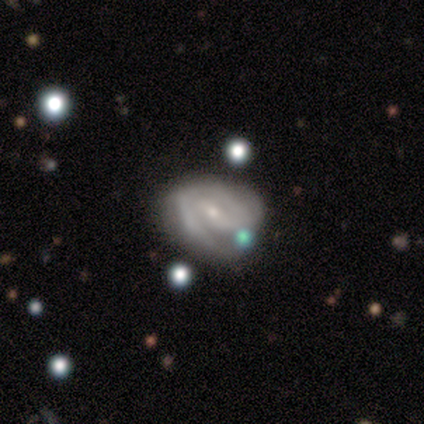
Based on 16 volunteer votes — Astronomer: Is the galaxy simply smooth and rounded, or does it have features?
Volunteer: featured or disk — 75%.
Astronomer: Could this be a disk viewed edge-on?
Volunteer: no — 100%.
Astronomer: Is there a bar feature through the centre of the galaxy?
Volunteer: weak — 58%.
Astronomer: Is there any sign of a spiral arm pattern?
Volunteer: yes — 100%.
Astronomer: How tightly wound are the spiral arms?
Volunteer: medium — 50% (runner-up: tight, 33%).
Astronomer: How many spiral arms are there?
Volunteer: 2 — 67%.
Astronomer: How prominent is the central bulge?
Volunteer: small — 83%.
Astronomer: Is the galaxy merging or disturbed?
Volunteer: none — 46% (runner-up: minor disturbance, 38%).